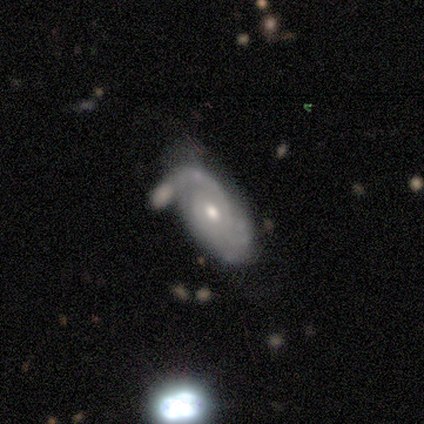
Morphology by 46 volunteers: Smooth or featured?
  - featured or disk: 85% *
  - smooth: 15%
  - star or artifact: 0%
Edge-on disk?
  - no: 92% *
  - yes: 8%
Bar?
  - no: 81% *
  - weak: 19%
  - strong: 0%
Spiral arms?
  - yes: 89% *
  - no: 11%
Spiral winding?
  - tight: 56% *
  - medium: 31%
  - loose: 12%
Spiral arm count?
  - 2: 41% *
  - can't tell: 34%
  - 1: 12%
  - 3: 6%
  - 4: 6%
  - more than 4: 0%
Bulge size?
  - moderate: 69% *
  - small: 25%
  - large: 6%
  - dominant: 0%
  - none: 0%
Merging?
  - major disturbance: 43% *
  - minor disturbance: 28%
  - none: 20%
  - merger: 9%